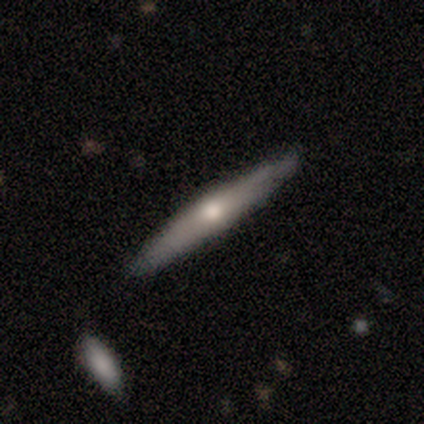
Smooth or featured: smooth — 60% (featured or disk — 40%)
How rounded: cigar-shaped — 100%
Merging: none — 80% (merger — 20%)